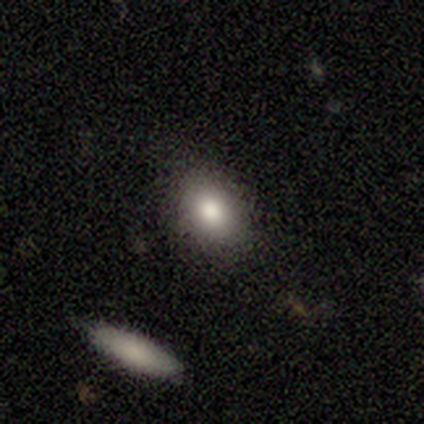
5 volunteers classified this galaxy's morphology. Smooth or featured? 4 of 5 (80%) said smooth. How rounded? 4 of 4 (100%) said in between. Merging? 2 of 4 (50%, tied with minor disturbance) said none.